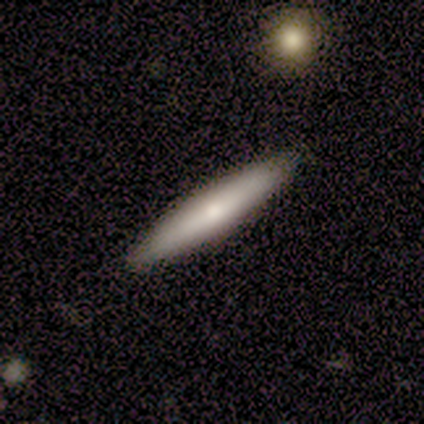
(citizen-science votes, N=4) smooth_or_featured: smooth (p=0.75) [alt: featured or disk p=0.25]
how_rounded: cigar-shaped (p=0.67) [alt: in between p=0.33]
merging: none (p=0.75) [alt: minor disturbance p=0.25]